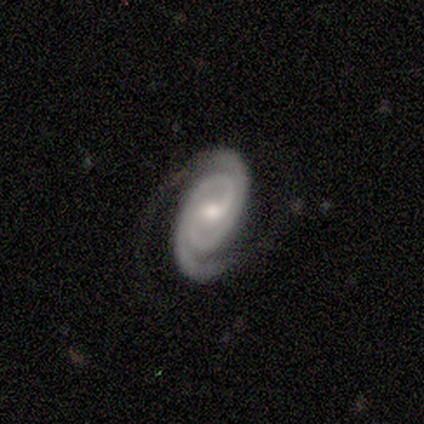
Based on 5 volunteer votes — This appears to be a featured or disk galaxy (100%) with a weak bar (80%), 2 (100%) tight (100%) spiral arms (100%) and a moderate central bulge (80%). Merging: none (60%).